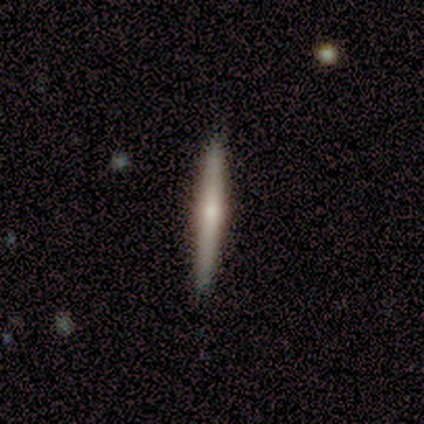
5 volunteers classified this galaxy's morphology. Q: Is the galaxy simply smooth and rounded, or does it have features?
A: featured or disk — 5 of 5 (100%).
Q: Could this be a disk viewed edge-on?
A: yes — 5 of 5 (100%).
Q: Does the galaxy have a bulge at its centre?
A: rounded — 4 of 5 (80%).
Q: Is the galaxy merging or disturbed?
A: none — 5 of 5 (100%).